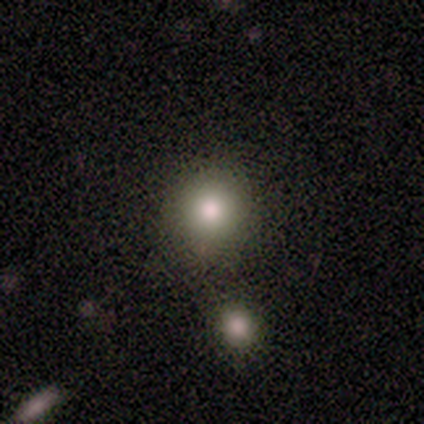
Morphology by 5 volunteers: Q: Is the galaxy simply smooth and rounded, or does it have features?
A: smooth — 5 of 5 (100%).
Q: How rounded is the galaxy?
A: round — 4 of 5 (80%).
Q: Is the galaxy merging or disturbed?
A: none — 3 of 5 (60%).